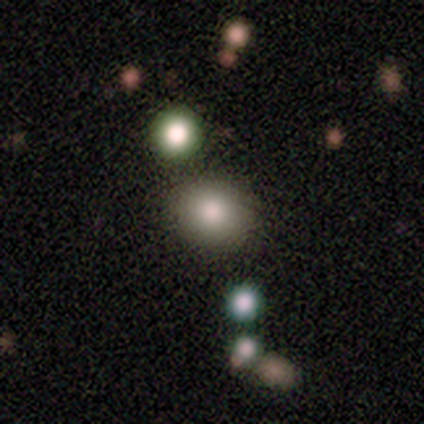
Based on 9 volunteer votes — Volunteers were most divided on "merging": none: 56%, minor disturbance: 33%, merger: 11%, major disturbance: 0%. More confident: smooth or featured — smooth (89%); how rounded — round (75%).